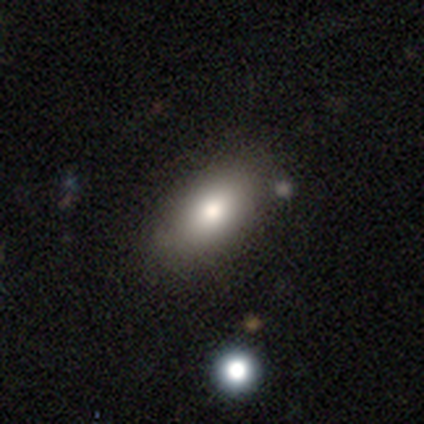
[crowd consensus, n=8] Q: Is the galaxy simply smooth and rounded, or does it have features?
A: smooth — 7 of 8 (88%).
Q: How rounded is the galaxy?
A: in between — 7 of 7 (100%).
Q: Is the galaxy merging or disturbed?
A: none — 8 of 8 (100%).